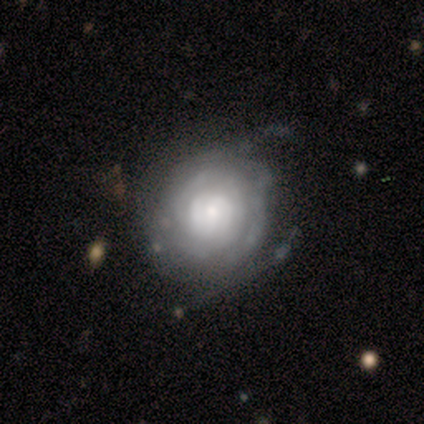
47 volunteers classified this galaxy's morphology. smooth-or-featured: featured or disk: 72% | smooth: 17% | star or artifact: 11%
  disk-edge-on: no: 100% | yes: 0%
    bar: no: 71% | weak: 24% | strong: 6%
    has-spiral-arms: yes: 79% | no: 21%
      spiral-winding: tight: 81% | medium: 11% | loose: 7%
      spiral-arm-count: can't tell: 70% | 2: 15% | 1: 4% | 3: 4% | 4: 4% | more than 4: 4%
    bulge-size: moderate: 35% | large: 26% | small: 26% | dominant: 6% | none: 6%
  merging: none: 55% | minor disturbance: 31% | major disturbance: 7% | merger: 7%